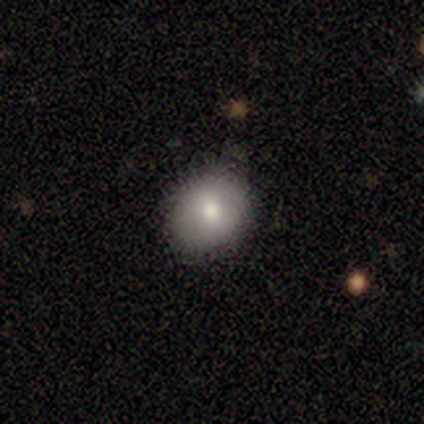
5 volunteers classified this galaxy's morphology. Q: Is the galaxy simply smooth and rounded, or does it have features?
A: smooth — 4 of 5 (80%).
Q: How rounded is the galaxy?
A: round — 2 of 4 (50%, tied with in between).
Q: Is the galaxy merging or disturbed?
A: none — 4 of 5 (80%).